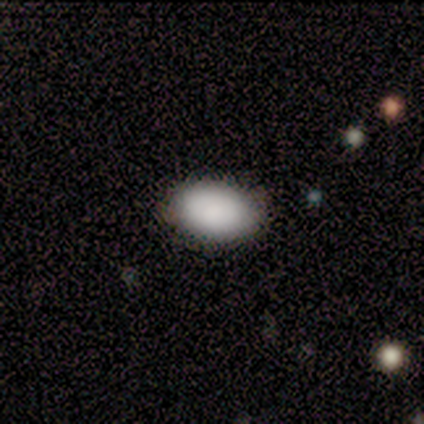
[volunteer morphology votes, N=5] This is clearly a smooth galaxy (100%). How rounded: clearly in between (100%). Merging: clearly none (100%).